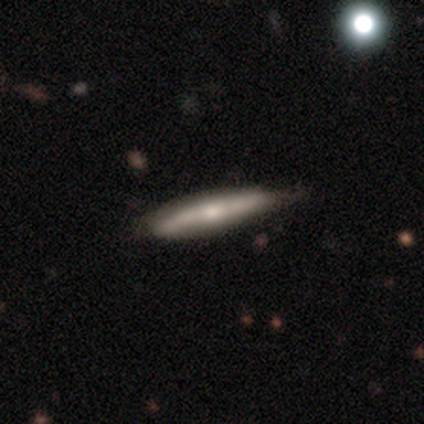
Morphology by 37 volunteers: A featured or disk galaxy (49%) viewed edge-on (83%) with a rounded central bulge (73%).

Vote fractions:
- Smooth or featured? featured or disk: 49% / smooth: 43% / star or artifact: 8%
- Edge-on disk? yes: 83% / no: 17%
- Edge-on bulge? rounded: 73% / none: 27% / boxy: 0%
- Merging? none: 74% / minor disturbance: 24% / major disturbance: 3% / merger: 0%